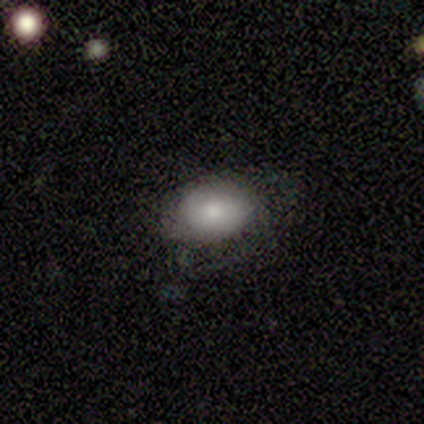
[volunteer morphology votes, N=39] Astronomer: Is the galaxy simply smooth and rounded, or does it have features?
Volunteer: smooth — 79%.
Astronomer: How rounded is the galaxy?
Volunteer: in between — 74%.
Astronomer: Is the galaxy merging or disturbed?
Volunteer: none — 73%.